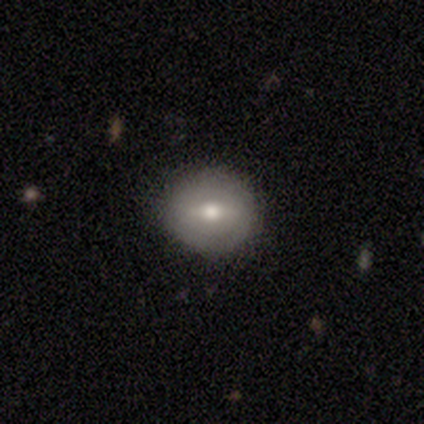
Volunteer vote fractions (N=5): This is clearly a smooth galaxy (100%). How rounded: clearly round (80%). Merging: clearly none (80%).